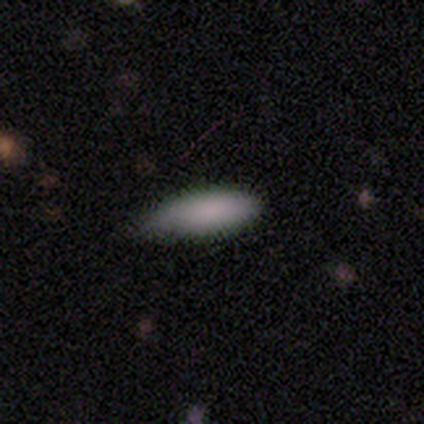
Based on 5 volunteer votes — smooth-or-featured: smooth: 100% | featured or disk: 0% | star or artifact: 0%
  how-rounded: in between: 60% | cigar-shaped: 40% | round: 0%
  merging: none: 60% | minor disturbance: 40% | major disturbance: 0% | merger: 0%